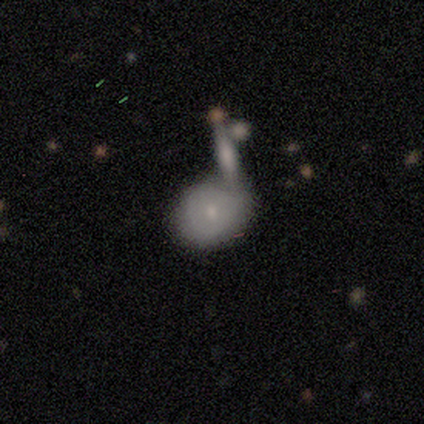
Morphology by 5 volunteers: Overall: featured or disk (60%; smooth 20%). Edge-on disk: no (100%). Bar: no (100%). Spiral arms: no (100%). Bulge size: small (67%; moderate 33%). Merging: none (50%, tied with major disturbance).